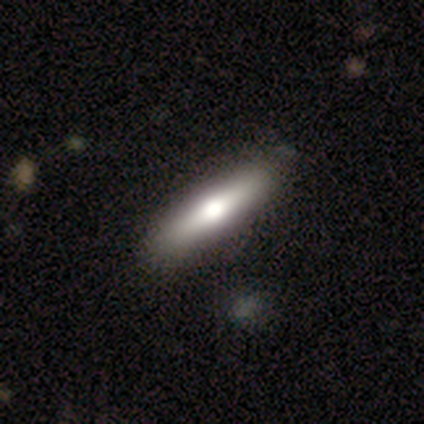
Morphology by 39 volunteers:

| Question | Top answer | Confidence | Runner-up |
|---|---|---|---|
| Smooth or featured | smooth | 62% | featured or disk (36%) |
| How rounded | cigar-shaped | 83% | in between (17%) |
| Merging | none | 68% | major disturbance (5%) |